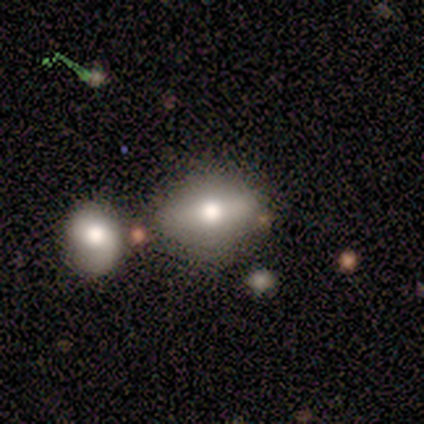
Smooth or featured?
  - smooth: 60% *
  - featured or disk: 40%
  - star or artifact: 0%
How rounded?
  - in between: 100% *
  - round: 0%
  - cigar-shaped: 0%
Merging?
  - none: 60% *
  - minor disturbance: 40%
  - major disturbance: 0%
  - merger: 0%